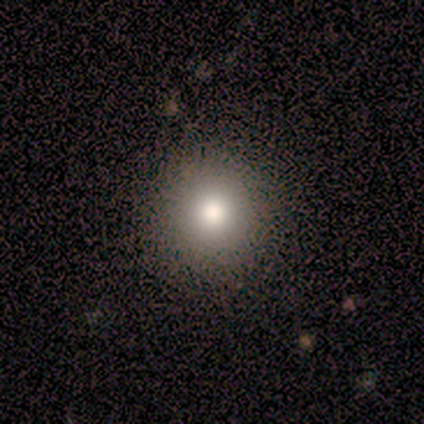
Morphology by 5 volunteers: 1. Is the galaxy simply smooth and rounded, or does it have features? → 60% smooth, 40% star or artifact, 0% featured or disk.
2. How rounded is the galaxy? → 100% round, 0% in between, 0% cigar-shaped.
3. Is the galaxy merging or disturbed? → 100% none, 0% minor disturbance, 0% major disturbance, 0% merger.